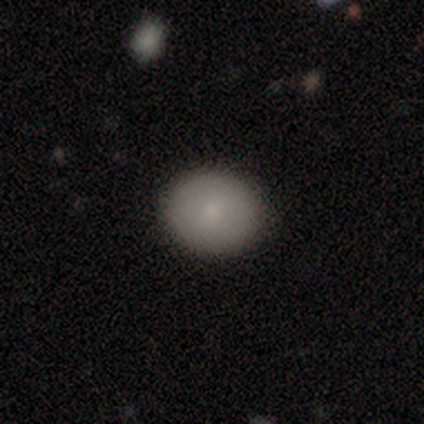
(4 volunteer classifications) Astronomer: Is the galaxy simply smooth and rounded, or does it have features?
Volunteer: smooth — 100%.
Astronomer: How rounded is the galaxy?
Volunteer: round — 50%, tied with in between at 50%.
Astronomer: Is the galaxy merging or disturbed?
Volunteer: none — 100%.